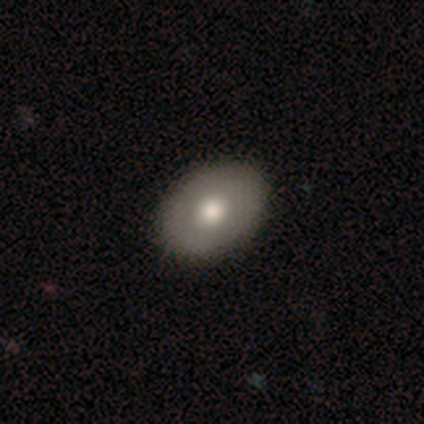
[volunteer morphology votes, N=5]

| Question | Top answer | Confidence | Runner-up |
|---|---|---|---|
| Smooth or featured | smooth | 100% | — |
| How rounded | in between | 80% | round (20%) |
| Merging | none | 100% | — |